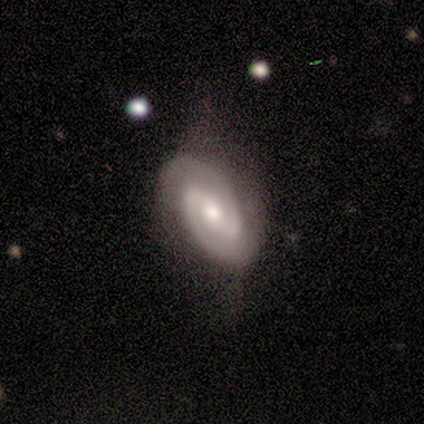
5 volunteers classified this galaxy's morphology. Overall: featured or disk (100%). Edge-on disk: no (100%). Bar: strong (60%; no 40%). Spiral arms: yes (100%). Spiral arm count: 2 (100%). Spiral winding: medium (60%; tight 40%). Bulge size: moderate (80%). Merging: none (80%).